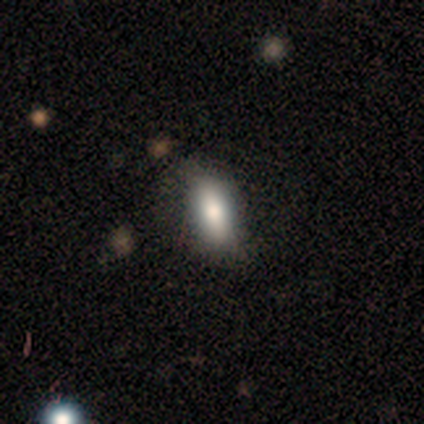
This is likely a smooth galaxy (77%). How rounded: likely in between (67%). Merging: likely none (71%).